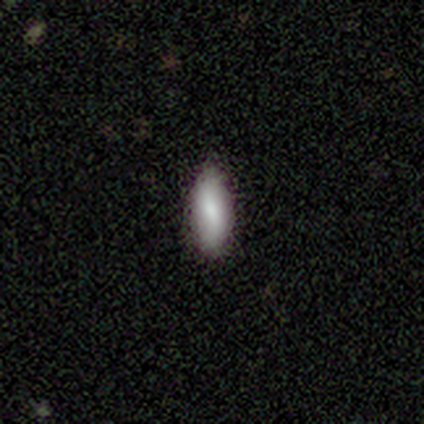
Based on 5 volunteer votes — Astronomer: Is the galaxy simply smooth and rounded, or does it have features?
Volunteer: smooth — 100%.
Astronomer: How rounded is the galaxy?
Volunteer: cigar-shaped — 60% (runner-up: in between, 40%).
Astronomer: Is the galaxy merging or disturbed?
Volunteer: minor disturbance — 60%.